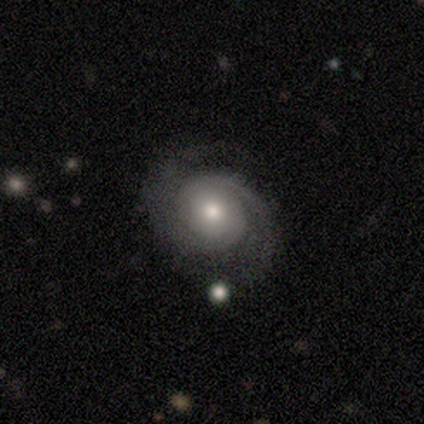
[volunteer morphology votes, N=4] Volunteers were most divided on "smooth or featured" (2-way tie): smooth: 50%, featured or disk: 50%, star or artifact: 0%. More confident: how rounded — round (100%); merging — none (75%).